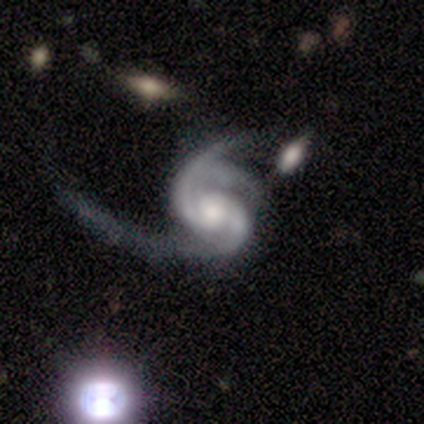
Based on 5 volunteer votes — A featured or disk galaxy (100%) with a weak bar (40%, tied with no), 2 (60%) medium (60%) spiral arms (100%) and a moderate central bulge (40%, tied with small). Merging: major disturbance (40%).